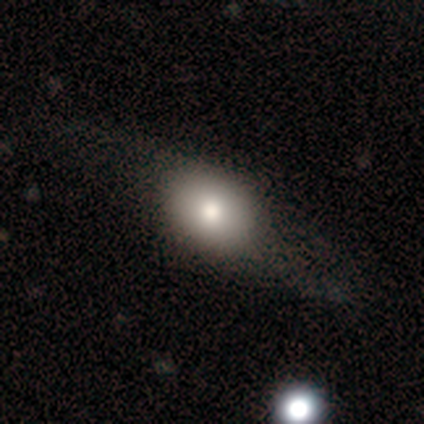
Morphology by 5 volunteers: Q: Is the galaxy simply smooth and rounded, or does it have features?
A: smooth — 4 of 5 (80%).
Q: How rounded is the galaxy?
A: in between — 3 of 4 (75%).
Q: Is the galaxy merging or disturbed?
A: none — 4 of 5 (80%).